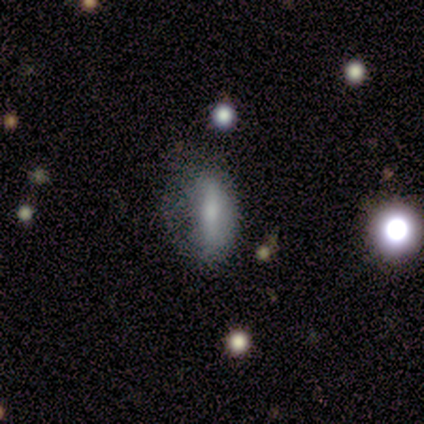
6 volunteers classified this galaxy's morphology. This appears to be a smooth galaxy with no disk features (67%) that is in between round and cigar-shaped (75%). Merging: none (33%, tied with minor disturbance and major disturbance).